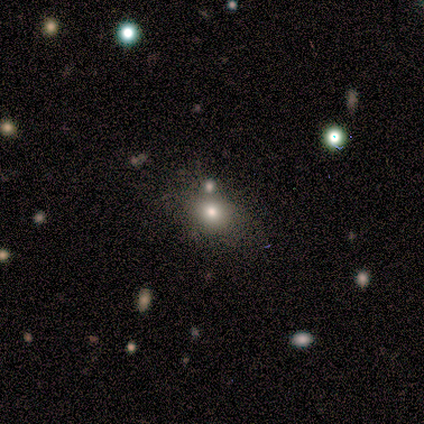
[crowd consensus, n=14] A smooth galaxy with no disk features (64%) that is in between round and cigar-shaped (56%). Merging: none (70%).